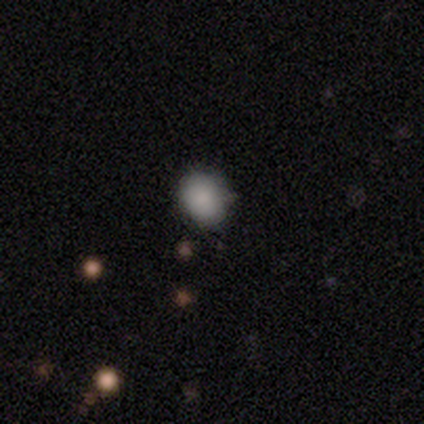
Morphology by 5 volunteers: type=smooth (80%); roundness=round (75%); merging=none (50%, tied with minor disturbance).